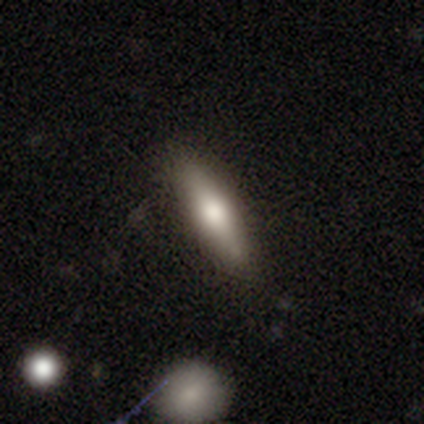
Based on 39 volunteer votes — A smooth galaxy with no disk features (62%) that is cigar-shaped (75%).

Vote fractions:
- Smooth or featured? smooth: 62% / featured or disk: 26% / star or artifact: 13%
- How rounded? cigar-shaped: 75% / in between: 21% / round: 4%
- Merging? none: 88% / minor disturbance: 12% / major disturbance: 0% / merger: 0%